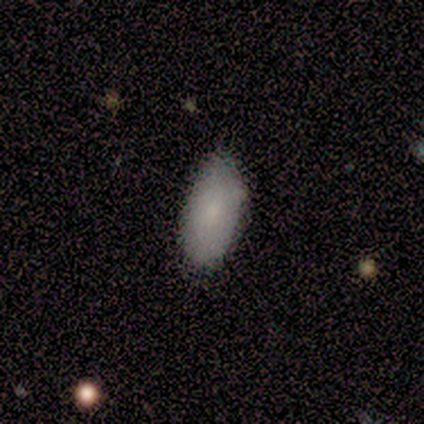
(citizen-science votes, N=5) smooth_or_featured: smooth (p=0.80) [alt: featured or disk p=0.20]
how_rounded: in between (p=1.00)
merging: none (p=0.60) [alt: minor disturbance p=0.20]